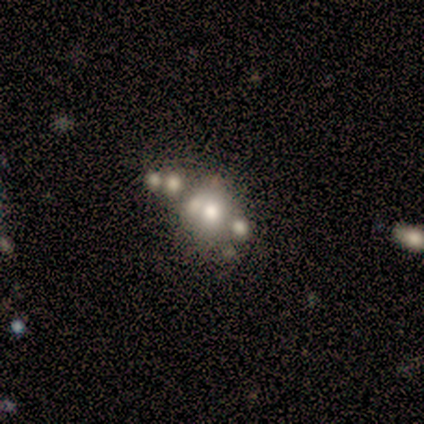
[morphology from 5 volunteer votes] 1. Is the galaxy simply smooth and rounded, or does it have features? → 60% smooth, 20% featured or disk, 20% star or artifact.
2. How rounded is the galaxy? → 67% in between, 33% round, 0% cigar-shaped.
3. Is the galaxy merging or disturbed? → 75% merger, 25% none, 0% minor disturbance, 0% major disturbance.